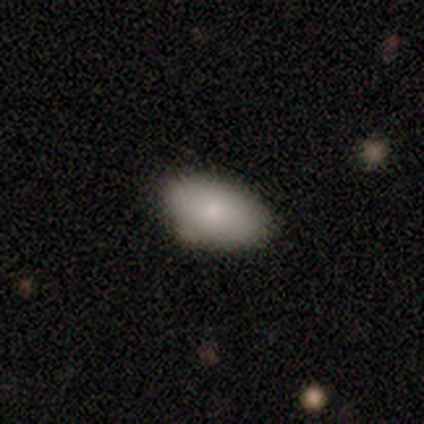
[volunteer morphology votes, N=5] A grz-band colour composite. It shows a smooth galaxy with no disk features (100%) that is in between round and cigar-shaped (100%). Merging: none (100%).